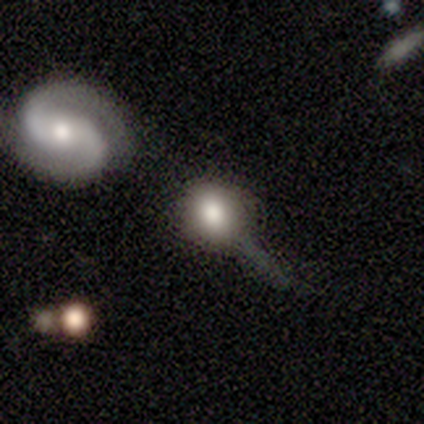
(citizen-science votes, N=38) This appears to be a smooth galaxy with no disk features (61%) that is round (78%). Merging: none (41%).